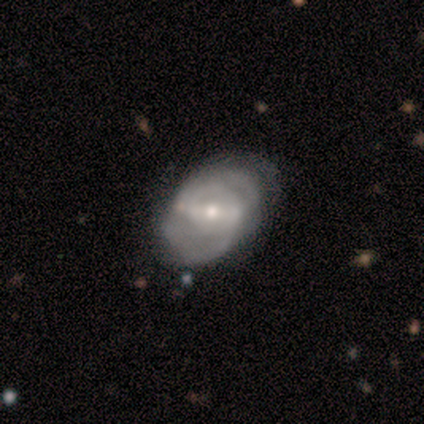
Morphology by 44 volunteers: smooth-or-featured: featured or disk: 77% | smooth: 18% | star or artifact: 5%
  disk-edge-on: no: 100% | yes: 0%
    bar: strong: 65% | weak: 26% | no: 9%
    has-spiral-arms: yes: 91% | no: 9%
      spiral-winding: medium: 55% | tight: 39% | loose: 6%
      spiral-arm-count: 2: 52% | can't tell: 35% | 3: 13% | 1: 0% | 4: 0% | more than 4: 0%
    bulge-size: moderate: 65% | small: 29% | large: 6% | dominant: 0% | none: 0%
  merging: none: 79% | minor disturbance: 10% | major disturbance: 10% | merger: 2%